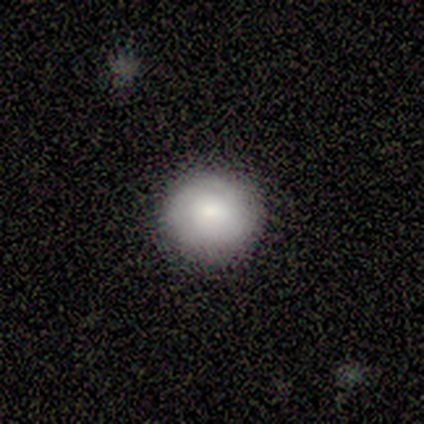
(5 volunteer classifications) A smooth galaxy with no disk features (100%) that is round (100%). Merging: none (60%).